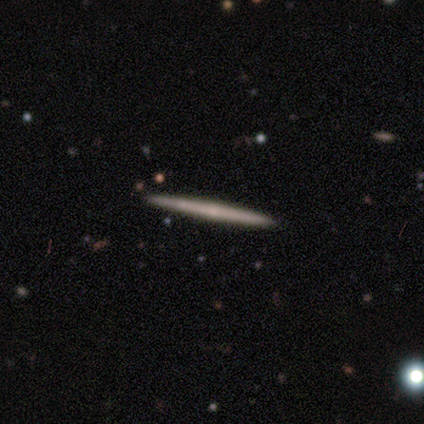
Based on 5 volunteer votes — Volunteers were most divided on "smooth or featured": smooth: 60%, featured or disk: 40%, star or artifact: 0%. More confident: how rounded — cigar-shaped (100%); merging — none (100%).